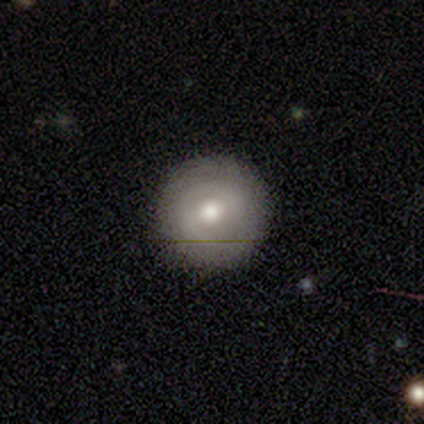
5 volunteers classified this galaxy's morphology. smooth-or-featured: featured or disk: 60% | smooth: 20% | star or artifact: 20%
  disk-edge-on: no: 100% | yes: 0%
    bar: strong: 67% | weak: 33% | no: 0%
    has-spiral-arms: yes: 67% | no: 33%
      spiral-winding: tight: 100% | medium: 0% | loose: 0%
      spiral-arm-count: 2: 50% (tied) | can't tell: 50% (tied) | 1: 0% | 3: 0% | 4: 0% | more than 4: 0%
    bulge-size: moderate: 67% | small: 33% | dominant: 0% | large: 0% | none: 0%
  merging: none: 100% | minor disturbance: 0% | major disturbance: 0% | merger: 0%